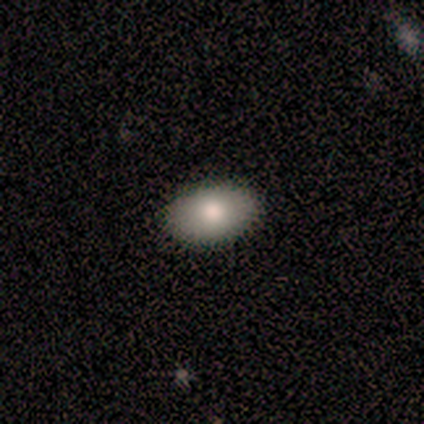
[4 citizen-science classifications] Morphology: type=smooth (75%); roundness=in between (100%); merging=none (100%).